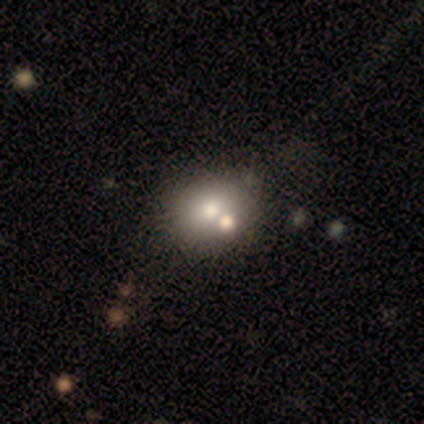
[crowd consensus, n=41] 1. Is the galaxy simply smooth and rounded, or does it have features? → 83% smooth, 10% featured or disk, 7% star or artifact.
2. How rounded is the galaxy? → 76% round, 24% in between, 0% cigar-shaped.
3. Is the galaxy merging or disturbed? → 39% none, 37% merger, 11% minor disturbance, 5% major disturbance.